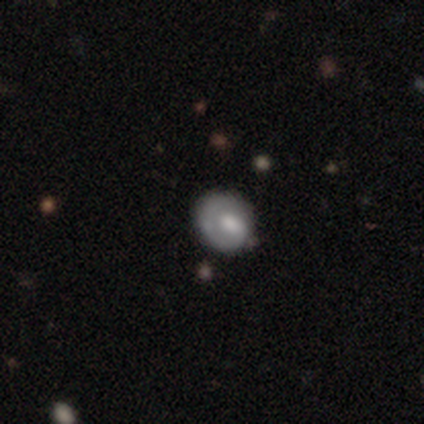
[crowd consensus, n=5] Smooth or featured? 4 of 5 (80%) said featured or disk. Edge-on disk? 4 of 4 (100%) said no. Bar? 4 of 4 (100%) said no. Spiral arms? 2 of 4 (50%, tied with no) said yes. Spiral winding? 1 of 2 (50%, tied with loose) said tight. Spiral arm count? 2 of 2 (100%) said 1. Bulge size? 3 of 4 (75%) said moderate. Merging? 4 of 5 (80%) said none.